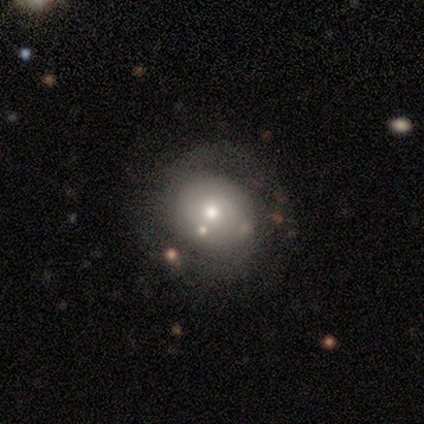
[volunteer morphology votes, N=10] A smooth galaxy with no disk features (70%) that is round (71%). Merging: none (60%).